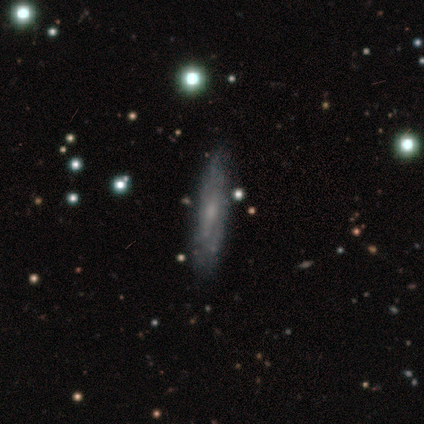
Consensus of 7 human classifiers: Smooth or featured: featured or disk — 71% (smooth — 29%)
Edge-on disk: no — 60% (yes — 40%)
Bar: weak — 67% (strong — 33%)
Spiral arms: yes — 100%
Spiral winding: tight — 67% (medium — 33%)
Spiral arm count: can't tell — 67% (2 — 33%)
Bulge size: small — 100%
Merging: none — 86% (minor disturbance — 14%)